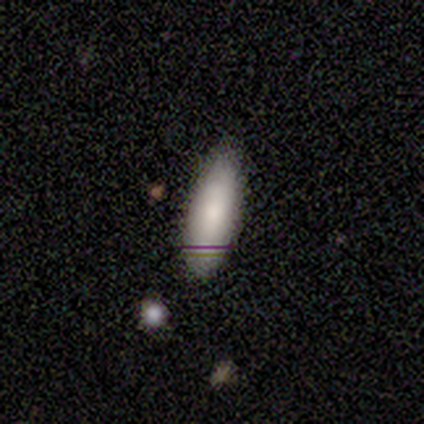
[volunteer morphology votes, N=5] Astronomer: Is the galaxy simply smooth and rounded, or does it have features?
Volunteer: smooth — 80%.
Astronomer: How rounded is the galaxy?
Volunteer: in between — 75%.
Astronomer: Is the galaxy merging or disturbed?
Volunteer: none — 100%.